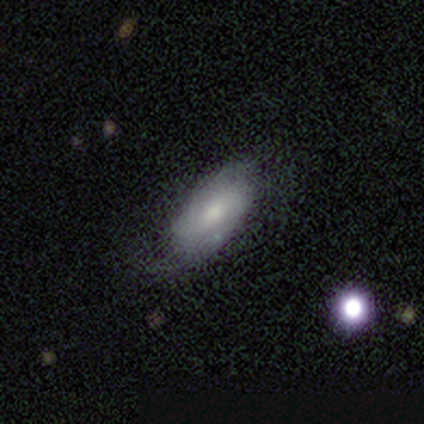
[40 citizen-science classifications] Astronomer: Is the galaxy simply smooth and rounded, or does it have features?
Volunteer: smooth — 50% (runner-up: featured or disk, 48%).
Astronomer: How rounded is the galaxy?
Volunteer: in between — 100%.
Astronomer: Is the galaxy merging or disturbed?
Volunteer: none — 64%.